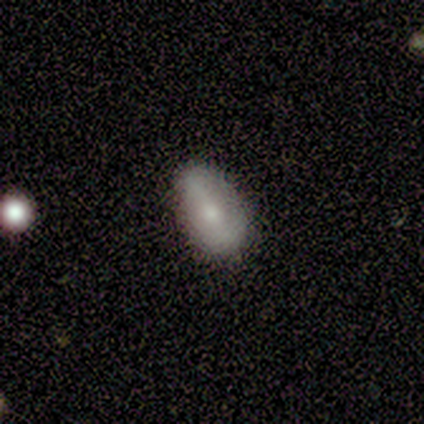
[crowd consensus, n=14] Smooth or featured? 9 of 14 (64%) said smooth. How rounded? 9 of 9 (100%) said in between. Merging? 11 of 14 (79%) said none.